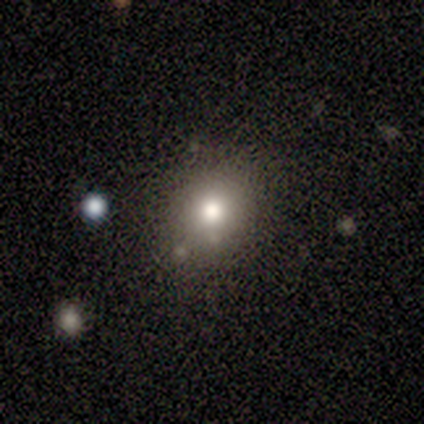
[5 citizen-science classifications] Smooth or featured? smooth (100%)
How rounded? round (60%)
Merging? none (80%)